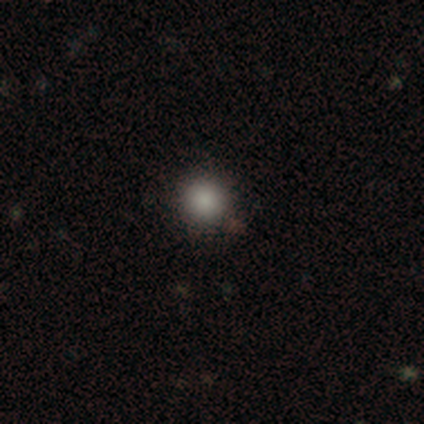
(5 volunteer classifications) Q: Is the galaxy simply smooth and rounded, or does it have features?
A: star or artifact — 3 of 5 (60%).